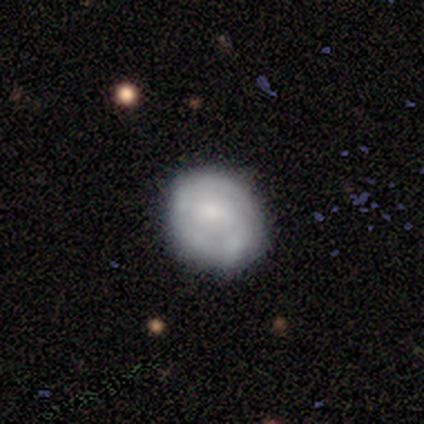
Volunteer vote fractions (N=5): Q: Smooth or featured?
A: smooth (60%); runner-up: featured or disk (20%)
Q: How rounded?
A: round (100%)
Q: Merging?
A: none (75%); runner-up: minor disturbance (25%)